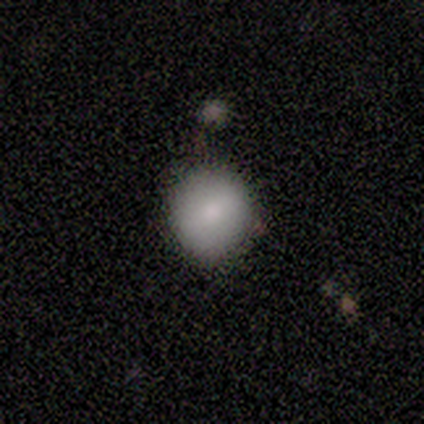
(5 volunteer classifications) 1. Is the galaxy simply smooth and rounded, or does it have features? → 100% smooth, 0% featured or disk, 0% star or artifact.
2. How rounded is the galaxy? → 100% round, 0% in between, 0% cigar-shaped.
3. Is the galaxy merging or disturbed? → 80% none, 20% merger, 0% minor disturbance, 0% major disturbance.